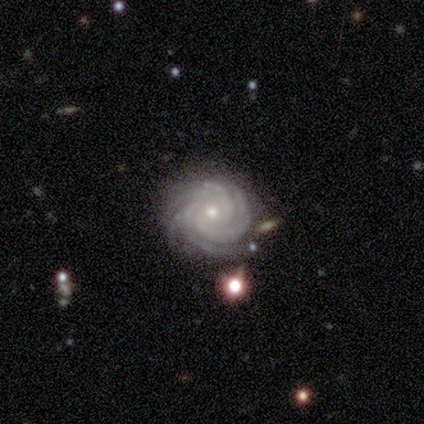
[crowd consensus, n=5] A featured or disk galaxy (100%) with no bar (80%), more than 4 (60%) tight (100%) spiral arms (100%) and a small central bulge (80%).

Vote fractions:
- Smooth or featured? featured or disk: 100% / smooth: 0% / star or artifact: 0%
- Edge-on disk? no: 100% / yes: 0%
- Bar? no: 80% / weak: 20% / strong: 0%
- Spiral arms? yes: 100% / no: 0%
- Spiral winding? tight: 100% / medium: 0% / loose: 0%
- Spiral arm count? more than 4: 60% / 4: 40% / 1: 0% / 2: 0% / 3: 0% / can't tell: 0%
- Bulge size? small: 80% / moderate: 20% / dominant: 0% / large: 0% / none: 0%
- Merging? none: 80% / minor disturbance: 20% / major disturbance: 0% / merger: 0%